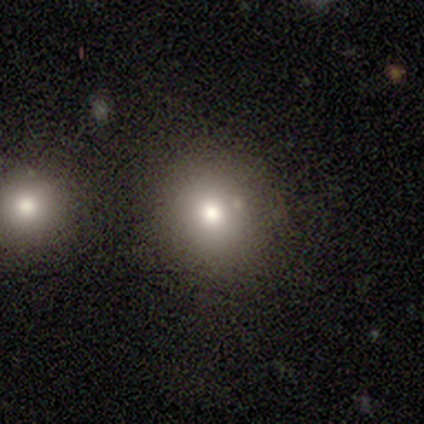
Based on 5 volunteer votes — Smooth or featured? 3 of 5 (60%) said smooth. How rounded? 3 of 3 (100%) said round. Merging? 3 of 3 (100%) said none.